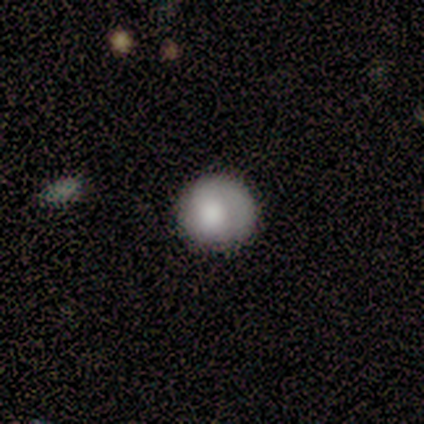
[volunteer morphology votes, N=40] smooth_or_featured: smooth (p=0.72) [alt: featured or disk p=0.20]
how_rounded: round (p=0.97) [alt: in between p=0.03]
merging: none (p=0.73) [alt: minor disturbance p=0.19]